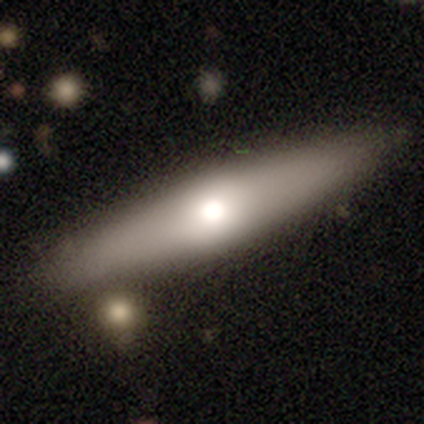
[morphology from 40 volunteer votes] This is likely a smooth galaxy (60%). How rounded: likely cigar-shaped (71%). Merging: likely none (67%).